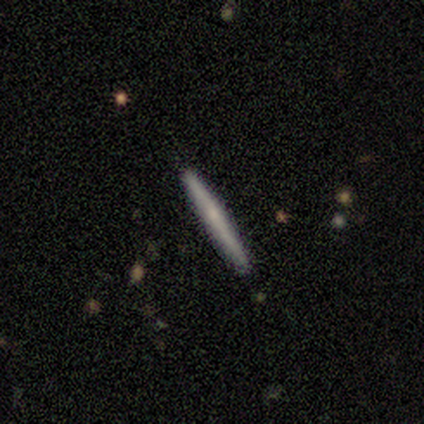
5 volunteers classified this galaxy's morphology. Smooth or featured? featured or disk (60%)
Edge-on disk? yes (100%)
Edge-on bulge? none (67%)
Merging? none (80%)